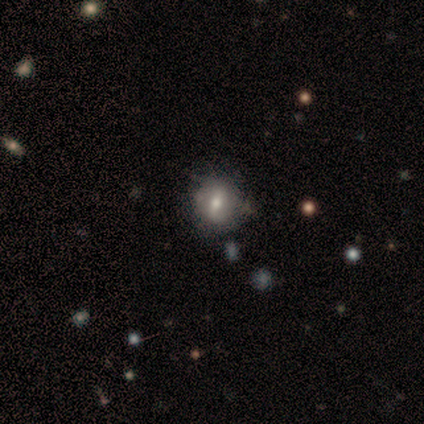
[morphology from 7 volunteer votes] Q: Smooth or featured?
A: smooth (57%); runner-up: featured or disk (43%)
Q: How rounded?
A: in between (75%); runner-up: round (25%)
Q: Merging?
A: none (57%); runner-up: major disturbance (29%)